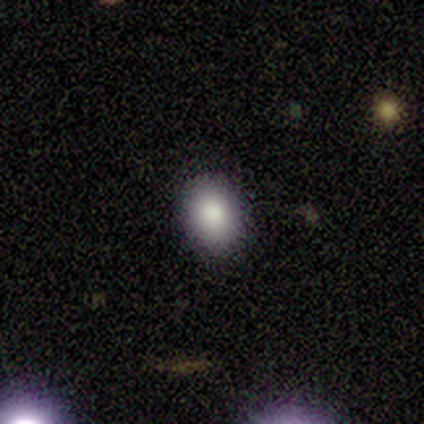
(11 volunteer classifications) Smooth or featured: smooth — 100%
How rounded: round — 55% (in between — 45%)
Merging: none — 91% (major disturbance — 9%)